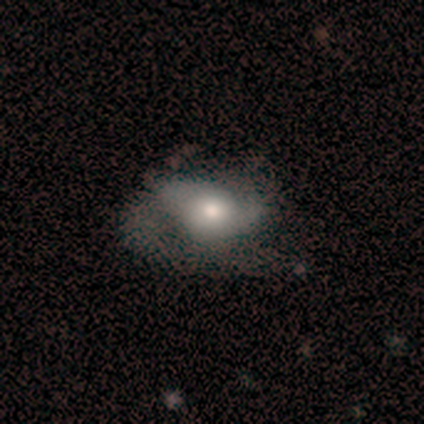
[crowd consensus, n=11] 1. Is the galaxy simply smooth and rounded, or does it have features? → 64% featured or disk, 27% smooth, 9% star or artifact.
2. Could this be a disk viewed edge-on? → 100% no, 0% yes.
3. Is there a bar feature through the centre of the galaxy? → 100% no, 0% strong, 0% weak.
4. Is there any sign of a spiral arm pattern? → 71% yes, 29% no.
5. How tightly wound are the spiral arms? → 60% medium, 40% loose, 0% tight.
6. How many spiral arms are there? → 80% 2, 20% can't tell, 0% 1, 0% 3, 0% 4, 0% more than 4.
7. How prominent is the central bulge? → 57% moderate, 29% large, 14% small, 0% dominant, 0% none.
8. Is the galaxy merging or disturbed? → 50% minor disturbance, 30% none, 20% major disturbance, 0% merger.